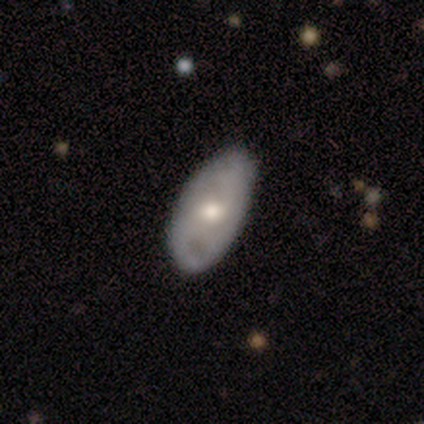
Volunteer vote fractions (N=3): Volunteers were most divided on "spiral arms" (2-way tie): yes: 50%, no: 50%. More confident: edge-on disk — no (100%); bar — no (100%); spiral winding — tight (100%); spiral arm count — can't tell (100%); bulge size — moderate (100%); merging — none (100%); smooth or featured — featured or disk (67%).